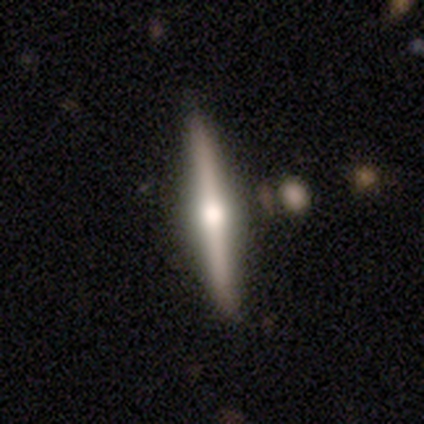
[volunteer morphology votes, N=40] Q: Smooth or featured?
A: featured or disk (57%); runner-up: smooth (38%)
Q: Edge-on disk?
A: yes (100%)
Q: Edge-on bulge?
A: rounded (91%); runner-up: boxy (4%)
Q: Merging?
A: none (87%); runner-up: minor disturbance (8%)